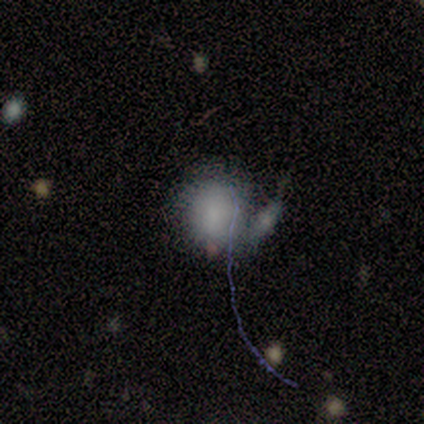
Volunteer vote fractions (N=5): A smooth galaxy with no disk features (80%) that is round (100%). Merging: minor disturbance (40%).